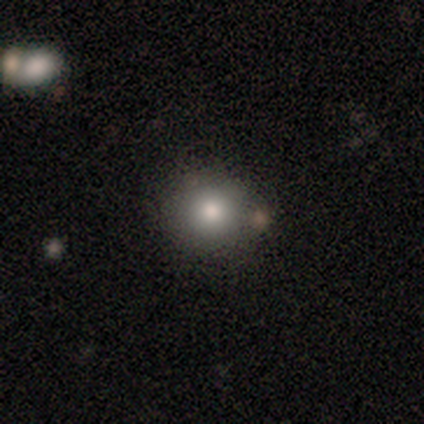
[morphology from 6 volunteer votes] smooth 67%, star or artifact 33%, featured or disk 0%. Down the decision tree: how rounded — round (100%); merging — none (75%).